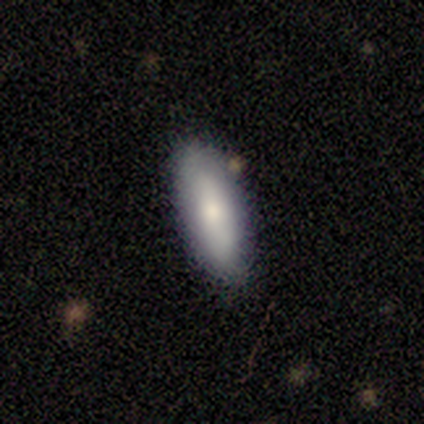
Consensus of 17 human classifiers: Q: Smooth or featured?
A: smooth (88%); runner-up: featured or disk (6%)
Q: How rounded?
A: in between (53%); runner-up: cigar-shaped (47%)
Q: Merging?
A: none (88%); runner-up: minor disturbance (12%)